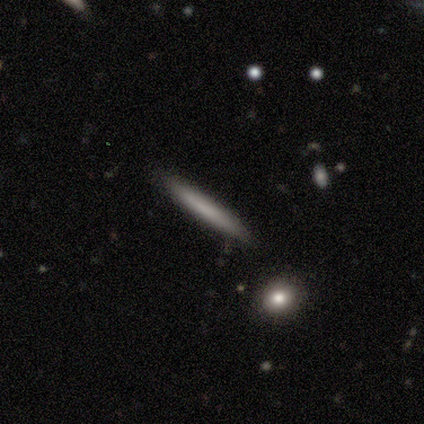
smooth-or-featured: smooth: 56% | featured or disk: 31% | star or artifact: 13%
  how-rounded: cigar-shaped: 100% | round: 0% | in between: 0%
  merging: none: 85% | minor disturbance: 9% | merger: 6% | major disturbance: 0%